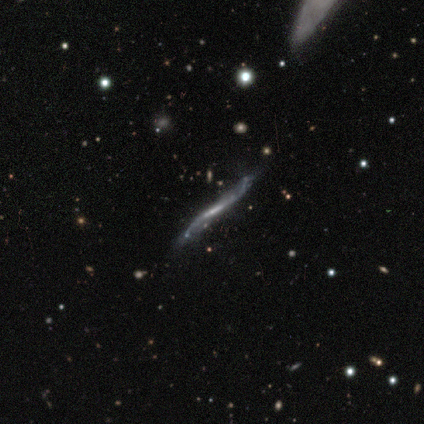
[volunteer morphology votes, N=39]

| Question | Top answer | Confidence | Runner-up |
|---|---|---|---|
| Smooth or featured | featured or disk | 92% | smooth (5%) |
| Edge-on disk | yes | 72% | no (28%) |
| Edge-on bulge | none | 85% | rounded (15%) |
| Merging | none | 68% | minor disturbance (24%) |